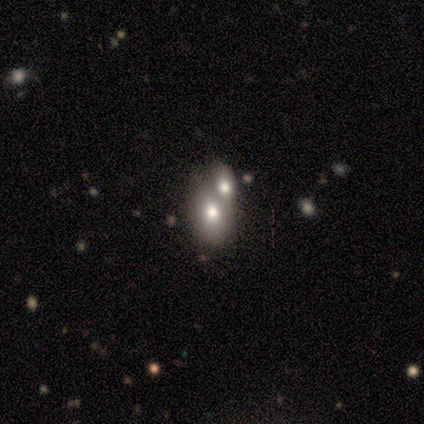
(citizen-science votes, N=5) Q: Smooth or featured?
A: smooth (80%); runner-up: featured or disk (20%)
Q: How rounded?
A: in between (75%); runner-up: round (25%)
Q: Merging?
A: none (40%); tied with: merger (40%)